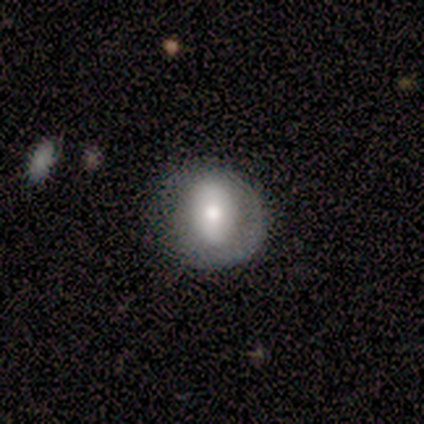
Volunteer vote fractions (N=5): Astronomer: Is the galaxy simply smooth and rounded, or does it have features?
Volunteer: smooth — 60% (runner-up: featured or disk, 40%).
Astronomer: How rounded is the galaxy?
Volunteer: round — 100%.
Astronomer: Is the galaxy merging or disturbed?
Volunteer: minor disturbance — 40% (runner-up: none, 20%).